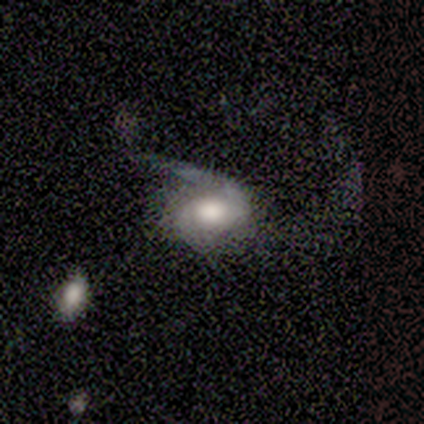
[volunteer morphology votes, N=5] Smooth or featured? smooth (80%)
How rounded? in between (100%)
Merging? major disturbance (60%)